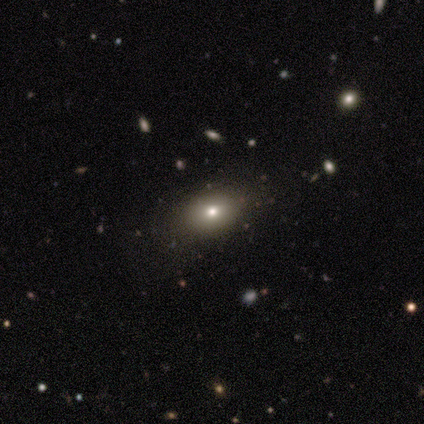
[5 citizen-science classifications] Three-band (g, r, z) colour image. It shows a smooth galaxy with no disk features (80%) that is in between round and cigar-shaped (75%). Merging: none (100%).